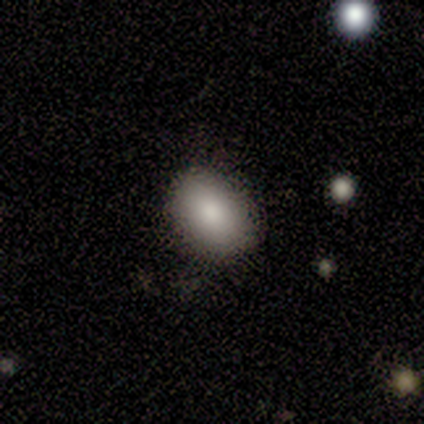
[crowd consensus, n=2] Smooth or featured? smooth (100%)
How rounded? in between (100%)
Merging? none (50%, tied with minor disturbance)